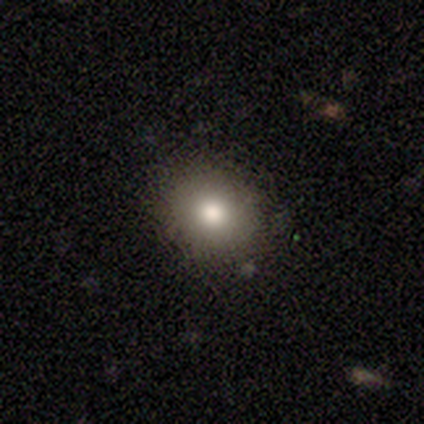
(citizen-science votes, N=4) smooth_or_featured: smooth (p=0.75) [alt: star or artifact p=0.25]
how_rounded: round (p=0.67) [alt: in between p=0.33]
merging: none (p=1.00)